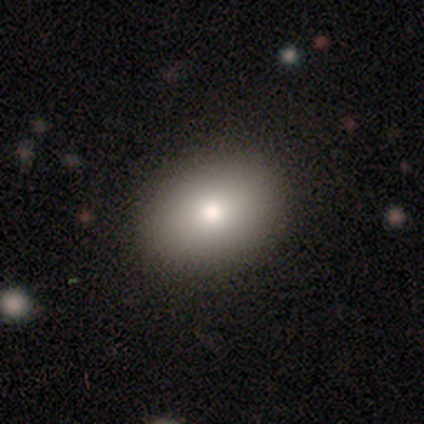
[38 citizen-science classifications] Smooth or featured?
  - smooth: 79% *
  - featured or disk: 16%
  - star or artifact: 5%
How rounded?
  - in between: 60% *
  - round: 40%
  - cigar-shaped: 0%
Merging?
  - none: 92% *
  - minor disturbance: 8%
  - major disturbance: 0%
  - merger: 0%